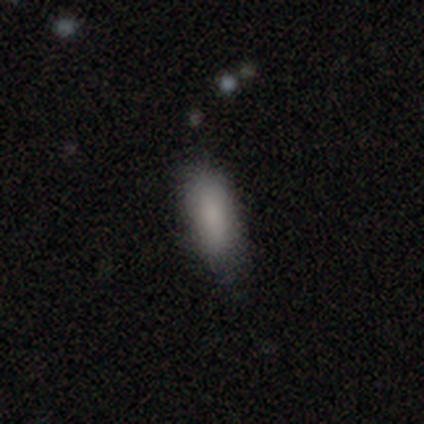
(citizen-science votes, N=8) Overall: smooth (88%). How rounded: in between (100%). Merging: none (88%).